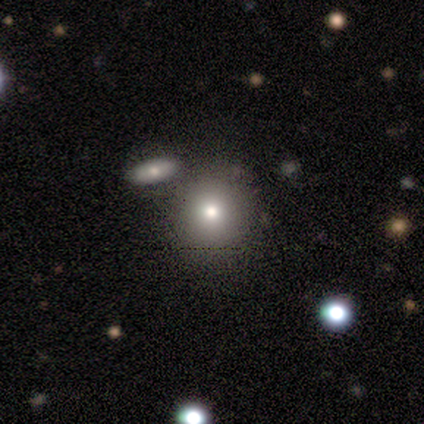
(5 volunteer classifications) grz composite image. It shows a smooth galaxy with no disk features (100%) that is round (100%). Merging: none (100%).